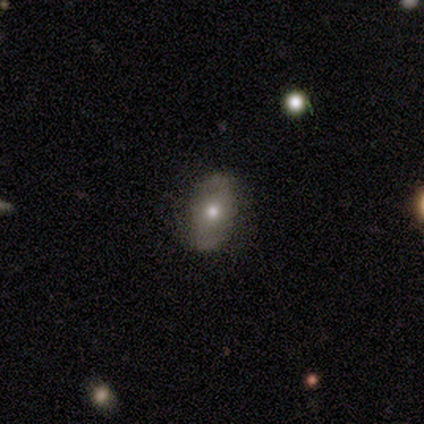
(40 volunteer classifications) Q: Smooth or featured?
A: smooth (52%); runner-up: featured or disk (40%)
Q: How rounded?
A: in between (81%); runner-up: round (14%)
Q: Merging?
A: none (92%); runner-up: minor disturbance (5%)